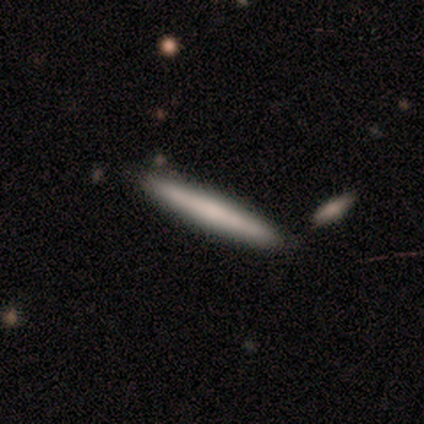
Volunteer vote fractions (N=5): Smooth or featured?
  - smooth: 80% *
  - featured or disk: 20%
  - star or artifact: 0%
How rounded?
  - cigar-shaped: 100% *
  - round: 0%
  - in between: 0%
Merging?
  - none: 80% *
  - minor disturbance: 20%
  - major disturbance: 0%
  - merger: 0%